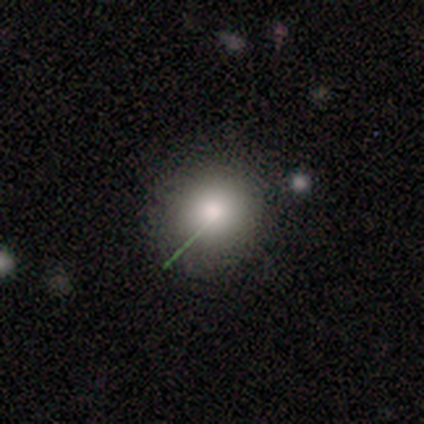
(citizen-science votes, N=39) A smooth galaxy with no disk features (72%) that is round (96%). Merging: none (62%).